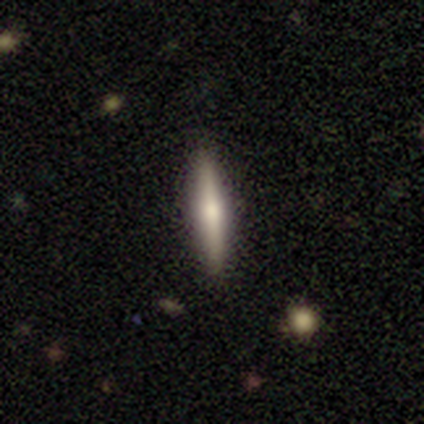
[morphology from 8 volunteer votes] This appears to be a smooth galaxy with no disk features (62%) that is cigar-shaped (80%). Merging: none (100%).